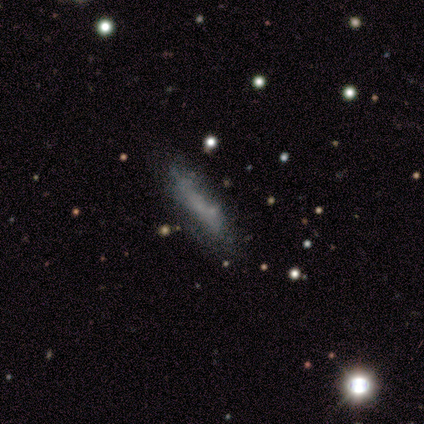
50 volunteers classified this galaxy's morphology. Smooth or featured? smooth (46%, tied with featured or disk)
How rounded? cigar-shaped (83%)
Merging? none (59%)